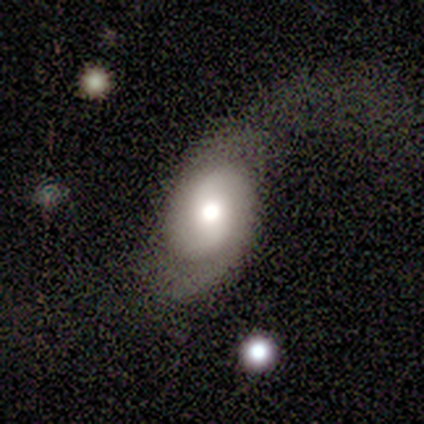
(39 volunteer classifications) smooth_or_featured: featured or disk (p=0.67) [alt: smooth p=0.23]
disk_edge_on: no (p=1.00)
bar: no (p=0.50) [alt: weak p=0.42]
has_spiral_arms: yes (p=0.81) [alt: no p=0.19]
spiral_winding: loose (p=0.62) [alt: tight p=0.19]
spiral_arm_count: 2 (p=0.90) [alt: 1 p=0.05]
bulge_size: moderate (p=0.69) [alt: large p=0.23]
merging: none (p=0.43) [alt: minor disturbance p=0.29]